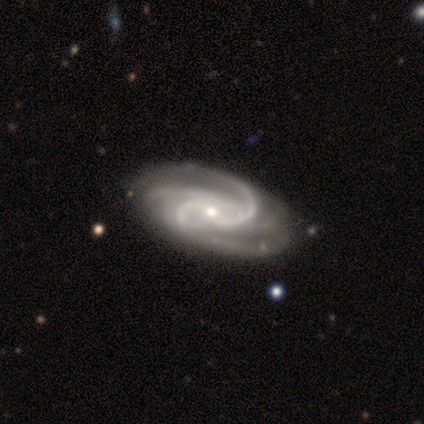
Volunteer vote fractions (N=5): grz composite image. It shows a featured or disk galaxy (100%) with a strong bar (40%, tied with no), 3 (60%) medium (60%) spiral arms (100%) and a moderate central bulge (60%). Merging: none (40%, tied with minor disturbance).